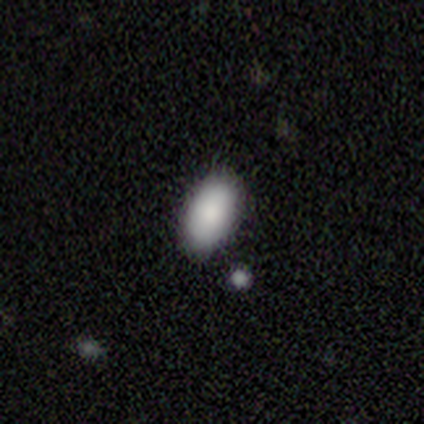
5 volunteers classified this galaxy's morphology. Overall: smooth (100%). How rounded: in between (80%). Merging: none (100%).